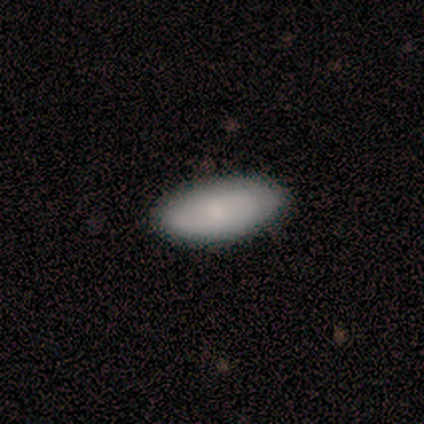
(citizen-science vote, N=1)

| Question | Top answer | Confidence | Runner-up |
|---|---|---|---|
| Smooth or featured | featured or disk | 100% | — |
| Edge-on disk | no | 100% | — |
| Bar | no | 100% | — |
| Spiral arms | yes | 100% | — |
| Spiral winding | loose | 100% | — |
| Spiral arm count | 2 | 100% | — |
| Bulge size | small | 100% | — |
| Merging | none | 100% | — |